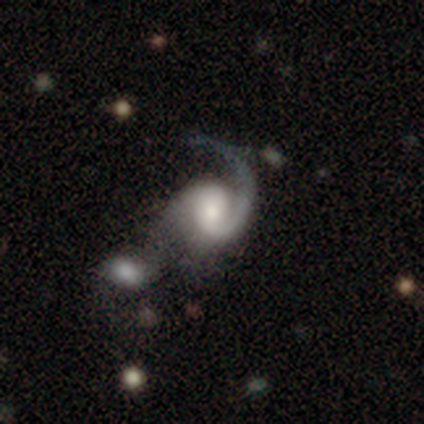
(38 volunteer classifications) Smooth or featured? 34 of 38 (89%) said featured or disk. Edge-on disk? 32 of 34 (94%) said no. Bar? 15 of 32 (47%) said no. Spiral arms? 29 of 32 (91%) said yes. Spiral winding? 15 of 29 (52%) said medium. Spiral arm count? 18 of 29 (62%) said 1. Bulge size? 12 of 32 (38%) said small. Merging? 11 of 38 (29%, tied with minor disturbance) said none.